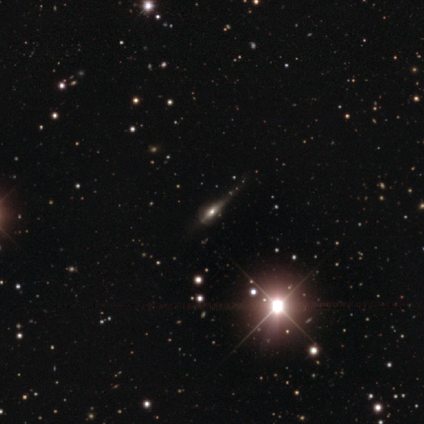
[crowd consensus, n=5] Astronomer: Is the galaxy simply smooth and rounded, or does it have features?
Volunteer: featured or disk — 60% (runner-up: star or artifact, 40%).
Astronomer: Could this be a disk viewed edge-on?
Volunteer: yes — 100%.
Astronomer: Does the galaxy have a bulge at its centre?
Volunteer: boxy — 67%.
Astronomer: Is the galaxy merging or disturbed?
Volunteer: none — 67%.